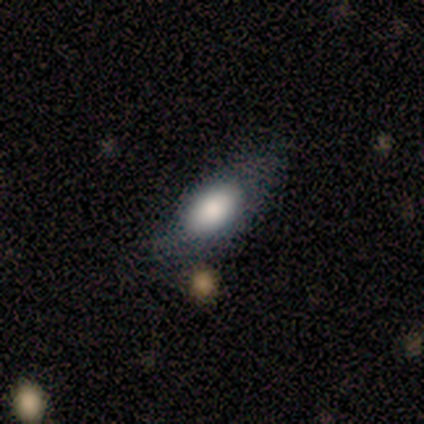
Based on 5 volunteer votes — This appears to be a smooth galaxy with no disk features (100%) that is in between round and cigar-shaped (80%). Merging: none (80%).